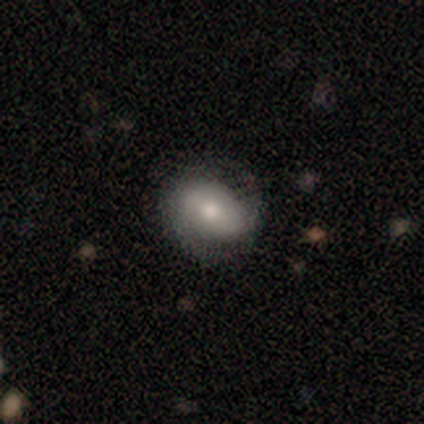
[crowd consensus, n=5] Morphology: type=smooth (80%); roundness=round (75%); merging=none (80%).